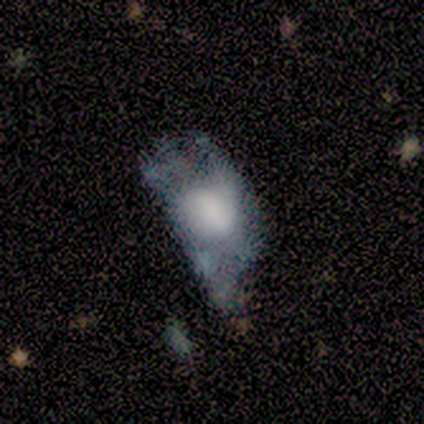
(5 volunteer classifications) Smooth or featured: smooth — 40% (tied with featured or disk — 40%)
How rounded: in between — 100%
Merging: none — 50% (minor disturbance — 25%)